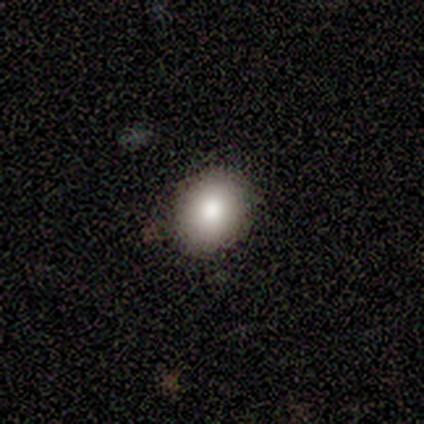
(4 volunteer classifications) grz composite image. It shows a smooth galaxy with no disk features (100%) that is round (75%). Merging: none (100%).